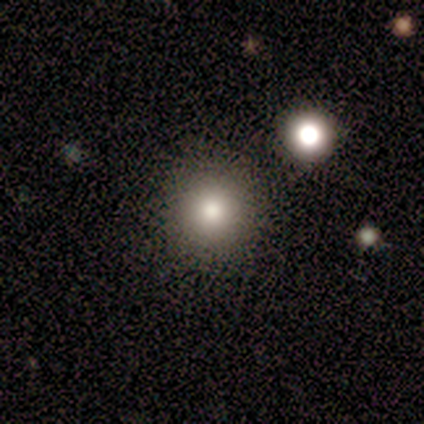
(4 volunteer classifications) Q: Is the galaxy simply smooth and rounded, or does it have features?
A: smooth — 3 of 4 (75%).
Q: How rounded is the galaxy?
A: round — 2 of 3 (67%).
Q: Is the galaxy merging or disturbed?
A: none — 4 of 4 (100%).